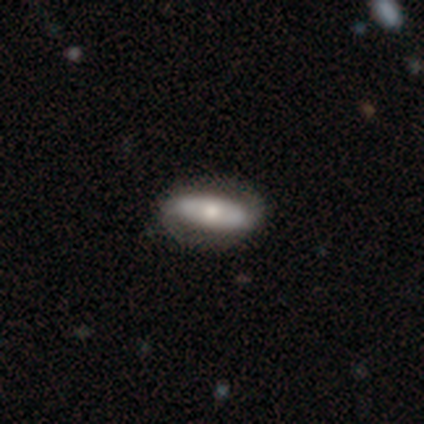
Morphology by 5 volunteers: featured or disk 60%, smooth 40%, star or artifact 0%. Down the decision tree: edge-on disk — no (100%); bar — strong (67%); spiral arms — no (67%); bulge size — moderate (67%); merging — none (60%).